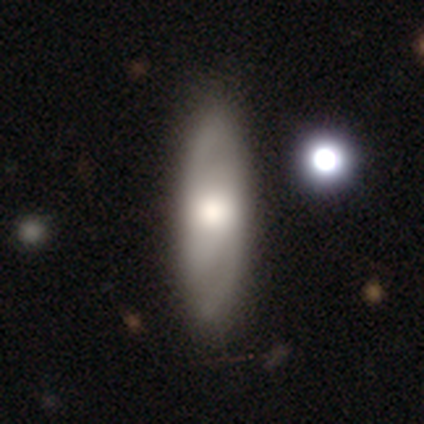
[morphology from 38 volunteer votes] smooth_or_featured: featured or disk (p=0.55) [alt: smooth p=0.39]
disk_edge_on: no (p=0.86) [alt: yes p=0.14]
bar: no (p=0.50) [alt: strong p=0.28]
has_spiral_arms: yes (p=0.94) [alt: no p=0.06]
spiral_winding: medium (p=0.59) [alt: loose p=0.29]
spiral_arm_count: 2 (p=0.71) [alt: can't tell p=0.24]
bulge_size: large (p=0.56) [alt: moderate p=0.33]
merging: none (p=0.67) [alt: minor disturbance p=0.08]